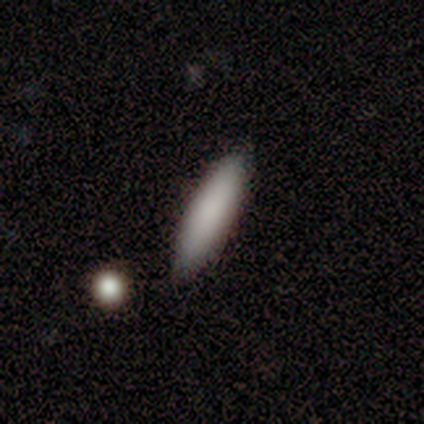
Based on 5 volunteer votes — A smooth galaxy with no disk features (60%) that is cigar-shaped (67%).

Vote fractions:
- Smooth or featured? smooth: 60% / featured or disk: 40% / star or artifact: 0%
- How rounded? cigar-shaped: 67% / in between: 33% / round: 0%
- Merging? none: 80% / merger: 20% / minor disturbance: 0% / major disturbance: 0%